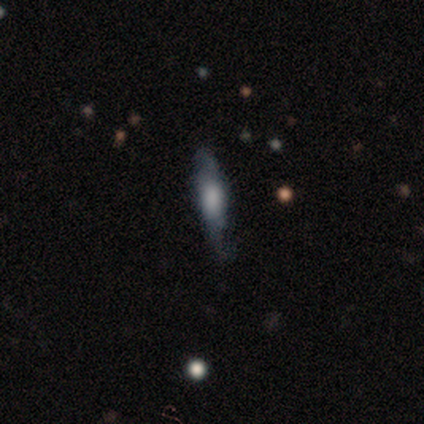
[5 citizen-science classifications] Smooth or featured?
  - featured or disk: 60% *
  - smooth: 40%
  - star or artifact: 0%
Edge-on disk?
  - no: 67% *
  - yes: 33%
Bar?
  - no: 100% *
  - strong: 0%
  - weak: 0%
Spiral arms?
  - yes: 100% *
  - no: 0%
Spiral winding?
  - loose: 100% *
  - tight: 0%
  - medium: 0%
Spiral arm count?
  - 2: 100% *
  - 1: 0%
  - 3: 0%
  - 4: 0%
  - more than 4: 0%
  - can't tell: 0%
Bulge size?
  - large: 50% * (tied)
  - none: 50% * (tied)
  - dominant: 0%
  - moderate: 0%
  - small: 0%
Merging?
  - none: 80% *
  - major disturbance: 20%
  - minor disturbance: 0%
  - merger: 0%